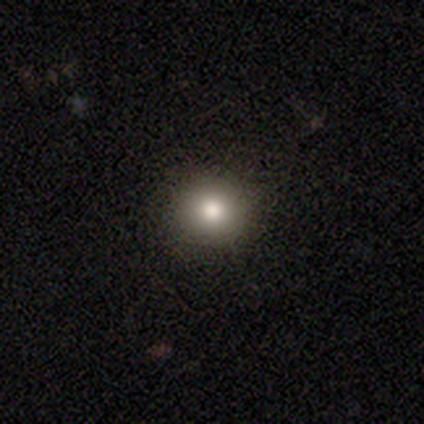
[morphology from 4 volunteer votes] smooth 100%, featured or disk 0%, star or artifact 0%. Down the decision tree: how rounded — round (100%); merging — none (100%).